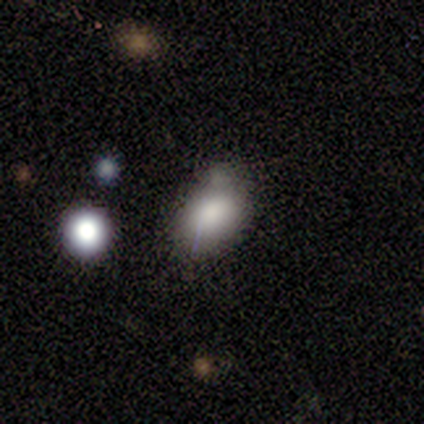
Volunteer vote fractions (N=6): Smooth or featured?
  - smooth: 67% *
  - featured or disk: 17%
  - star or artifact: 17%
How rounded?
  - round: 50% * (tied)
  - in between: 50% * (tied)
  - cigar-shaped: 0%
Merging?
  - none: 40% * (tied)
  - merger: 40% * (tied)
  - minor disturbance: 20%
  - major disturbance: 0%